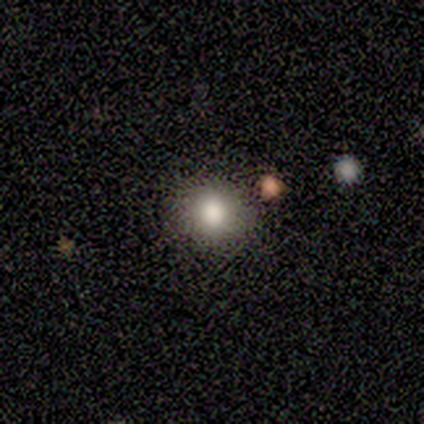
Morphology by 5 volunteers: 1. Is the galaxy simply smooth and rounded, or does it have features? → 100% smooth, 0% featured or disk, 0% star or artifact.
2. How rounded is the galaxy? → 80% round, 20% in between, 0% cigar-shaped.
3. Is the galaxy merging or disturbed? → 100% none, 0% minor disturbance, 0% major disturbance, 0% merger.